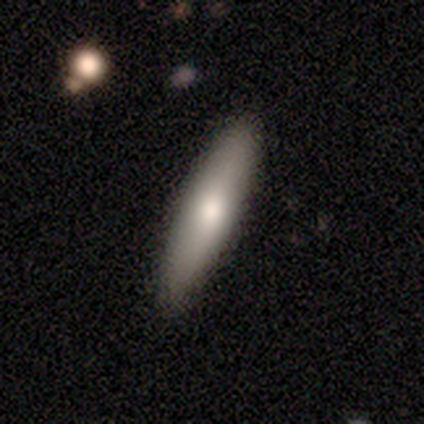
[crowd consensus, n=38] Morphology: type=smooth (76%); roundness=cigar-shaped (86%); merging=none (89%).